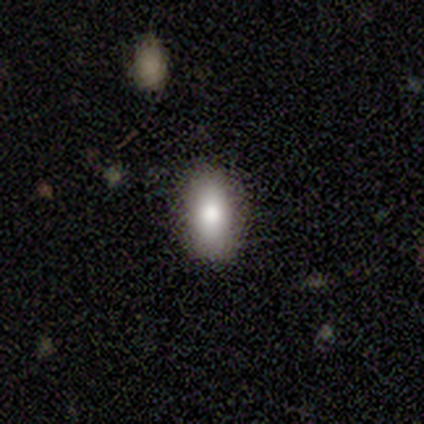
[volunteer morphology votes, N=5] Smooth or featured? smooth (100%)
How rounded? in between (100%)
Merging? none (60%)